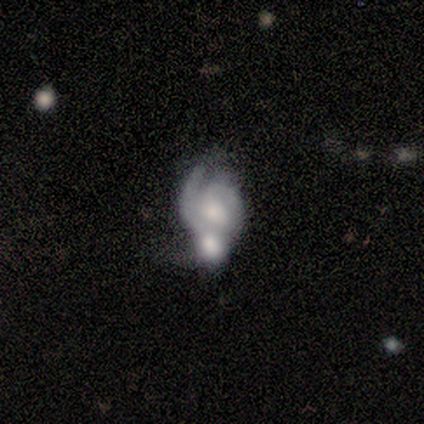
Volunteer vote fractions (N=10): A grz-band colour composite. It shows a featured or disk galaxy (90%) with no bar (78%), 1 (43%, tied with 2) medium (57%) spiral arms (78%) and a moderate central bulge (78%). Merging: merger (40%).